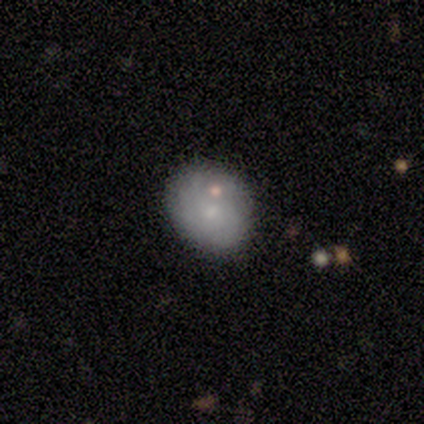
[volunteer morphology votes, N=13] Q: Smooth or featured?
A: smooth (69%); runner-up: featured or disk (23%)
Q: How rounded?
A: in between (67%); runner-up: round (33%)
Q: Merging?
A: none (75%); runner-up: minor disturbance (25%)